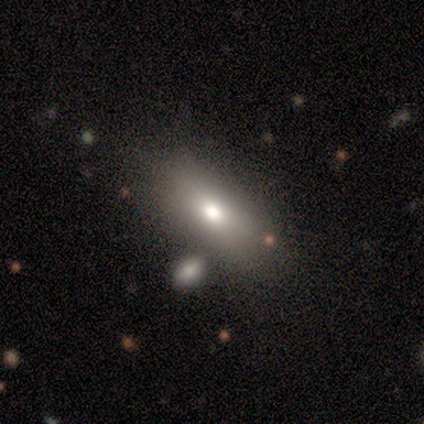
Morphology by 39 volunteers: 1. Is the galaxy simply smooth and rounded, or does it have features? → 79% smooth, 10% featured or disk, 10% star or artifact.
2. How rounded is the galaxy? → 90% in between, 6% cigar-shaped, 3% round.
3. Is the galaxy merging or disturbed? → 89% none, 9% merger, 3% minor disturbance, 0% major disturbance.